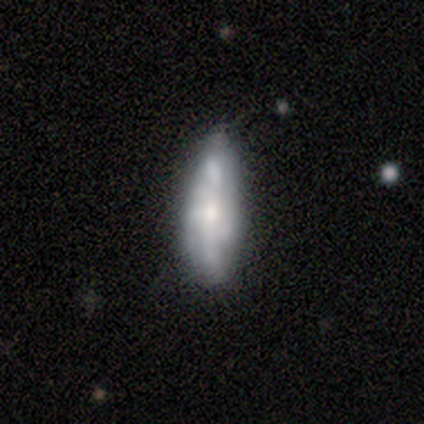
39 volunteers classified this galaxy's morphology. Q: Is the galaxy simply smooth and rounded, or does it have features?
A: featured or disk — 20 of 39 (51%).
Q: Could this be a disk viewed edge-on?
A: no — 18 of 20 (90%).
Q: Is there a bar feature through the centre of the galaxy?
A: no — 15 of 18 (83%).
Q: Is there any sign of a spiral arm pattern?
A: yes — 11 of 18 (61%).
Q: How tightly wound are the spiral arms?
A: loose — 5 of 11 (45%).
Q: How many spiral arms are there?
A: can't tell — 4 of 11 (36%).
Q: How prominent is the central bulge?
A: small — 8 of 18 (44%).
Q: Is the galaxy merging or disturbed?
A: none — 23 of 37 (62%).